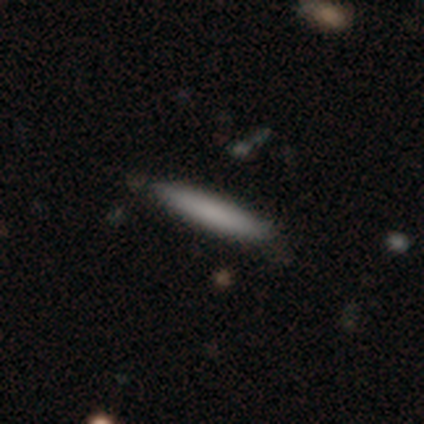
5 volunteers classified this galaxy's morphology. Overall: smooth (80%). How rounded: cigar-shaped (100%). Merging: none (100%).